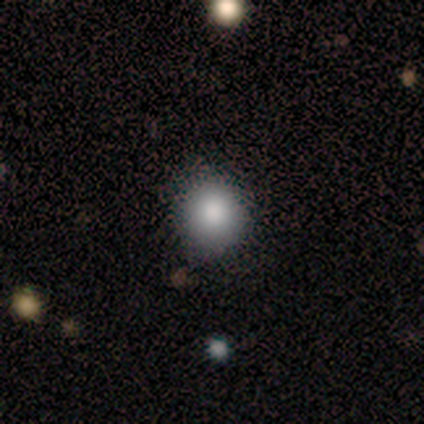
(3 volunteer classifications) smooth_or_featured: smooth (p=1.00)
how_rounded: in between (p=0.67) [alt: round p=0.33]
merging: none (p=0.67) [alt: minor disturbance p=0.33]